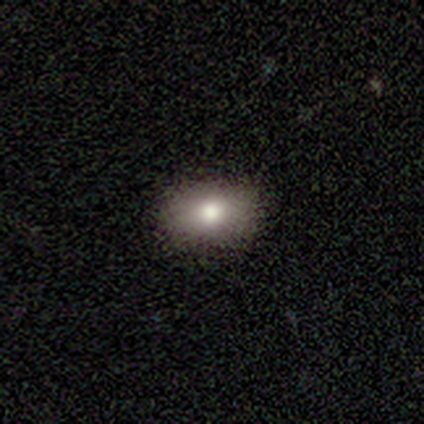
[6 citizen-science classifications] Smooth or featured?
  - smooth: 100% *
  - featured or disk: 0%
  - star or artifact: 0%
How rounded?
  - in between: 100% *
  - round: 0%
  - cigar-shaped: 0%
Merging?
  - none: 100% *
  - minor disturbance: 0%
  - major disturbance: 0%
  - merger: 0%